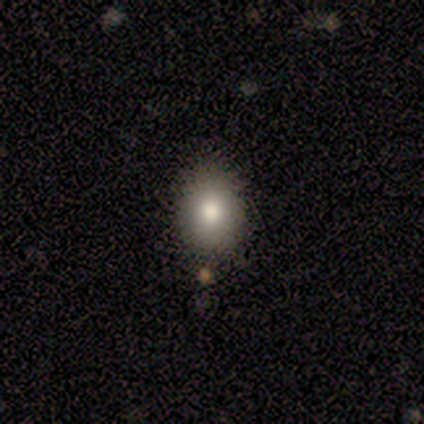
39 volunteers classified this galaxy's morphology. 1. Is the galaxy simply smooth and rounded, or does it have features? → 79% smooth, 13% featured or disk, 8% star or artifact.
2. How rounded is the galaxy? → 58% round, 42% in between, 0% cigar-shaped.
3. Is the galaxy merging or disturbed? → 78% none, 14% minor disturbance, 8% merger, 0% major disturbance.